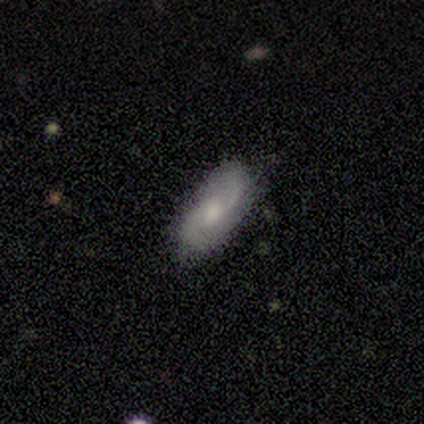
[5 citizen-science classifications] This appears to be a featured or disk galaxy (60%) with a weak bar (100%), 2 (67%) medium (67%) spiral arms (100%) and a moderate central bulge (100%). Merging: none (100%).